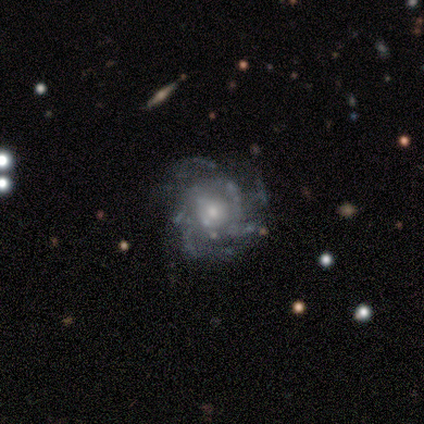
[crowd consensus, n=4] Volunteers were most divided on "spiral winding" (3-way tie): tight: 33%, medium: 33%, loose: 33%. More confident: edge-on disk — no (100%); bar — no (100%); spiral arms — yes (100%); bulge size — small (100%); smooth or featured — featured or disk (75%); spiral arm count — can't tell (67%); merging — none (67%).